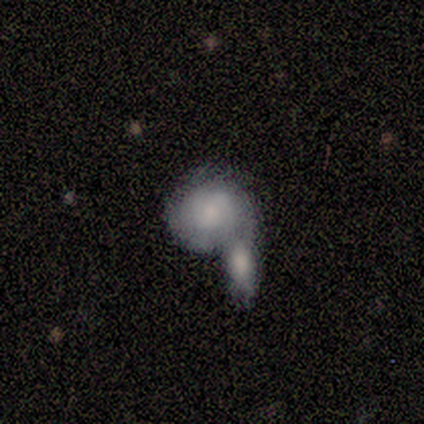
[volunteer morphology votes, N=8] Smooth or featured? 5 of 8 (62%) said featured or disk. Edge-on disk? 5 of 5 (100%) said no. Bar? 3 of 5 (60%) said no. Spiral arms? 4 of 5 (80%) said no. Bulge size? 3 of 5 (60%) said small. Merging? 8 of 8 (100%) said merger.